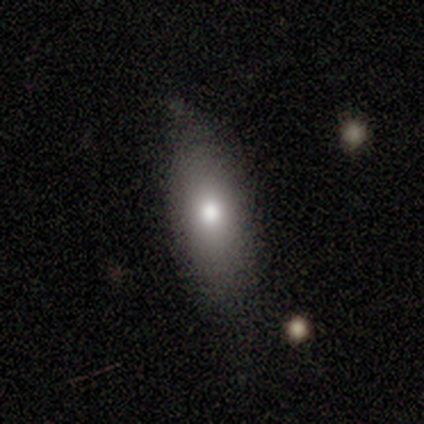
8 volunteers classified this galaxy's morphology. smooth_or_featured: smooth (p=0.62) [alt: featured or disk p=0.25]
how_rounded: cigar-shaped (p=0.60) [alt: in between p=0.40]
merging: minor disturbance (p=0.57) [alt: none p=0.43]